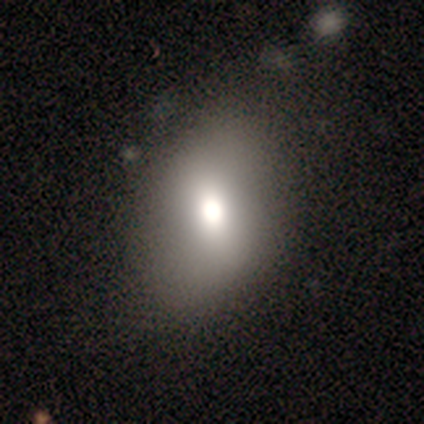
Smooth or featured? smooth (56%)
How rounded? in between (82%)
Merging? none (81%)